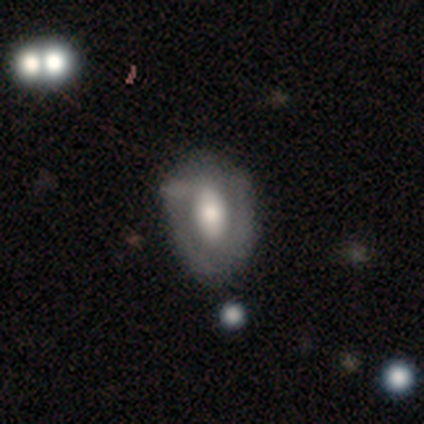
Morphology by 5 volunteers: featured or disk 80%, smooth 20%, star or artifact 0%. Down the decision tree: edge-on disk — no (100%); bar — strong (50%, tied with no); spiral arms — no (75%); bulge size — moderate (75%); merging — minor disturbance (60%).